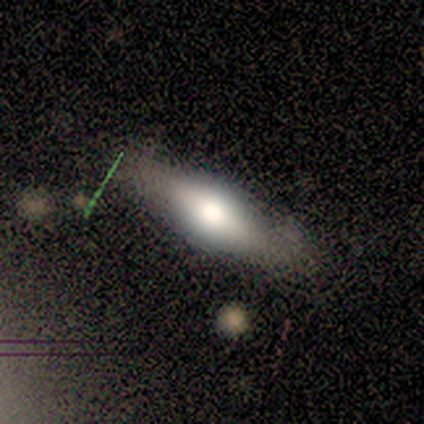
Smooth or featured: featured or disk — 100%
Edge-on disk: no — 100%
Bar: no — 100%
Spiral arms: no — 100%
Bulge size: moderate — 100%
Merging: none — 100%